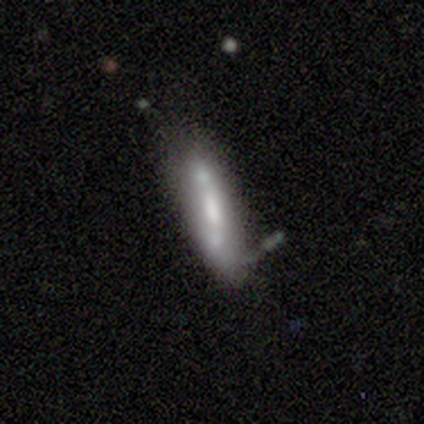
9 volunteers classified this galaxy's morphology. Smooth or featured? smooth (56%)
How rounded? cigar-shaped (80%)
Merging? minor disturbance (56%)